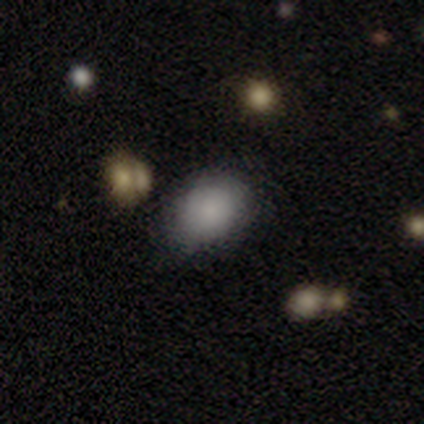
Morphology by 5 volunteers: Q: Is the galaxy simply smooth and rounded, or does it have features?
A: smooth — 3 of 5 (60%).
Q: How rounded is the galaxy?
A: in between — 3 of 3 (100%).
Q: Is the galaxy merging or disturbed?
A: none — 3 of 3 (100%).